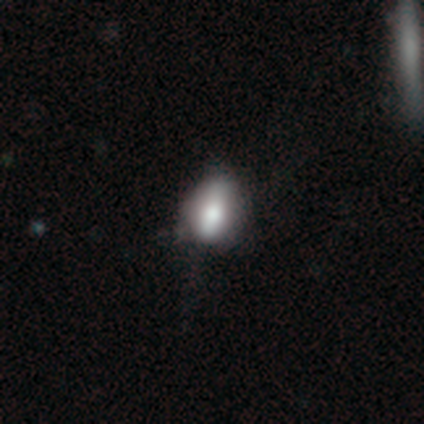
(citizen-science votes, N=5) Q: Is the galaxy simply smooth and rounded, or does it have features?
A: smooth — 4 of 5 (80%).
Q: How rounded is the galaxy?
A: in between — 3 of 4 (75%).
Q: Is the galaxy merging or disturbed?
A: none — 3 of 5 (60%).